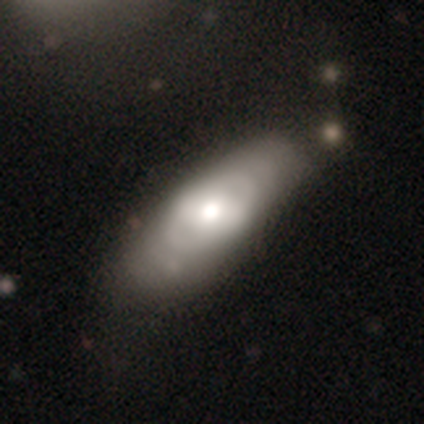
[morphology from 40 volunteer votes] This appears to be a featured or disk galaxy (57%) with a strong bar (37%, tied with no), no spiral arms (53%) and a moderate central bulge (68%). Merging: none (44%).